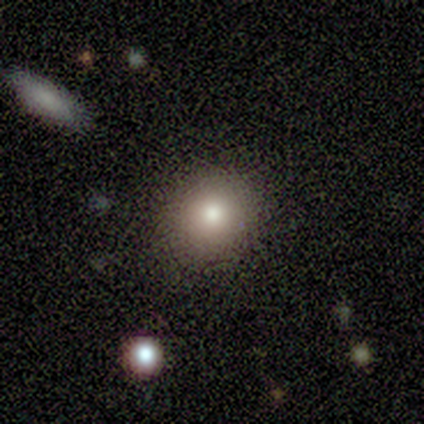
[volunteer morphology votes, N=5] A smooth galaxy with no disk features (80%) that is round (100%). Merging: none (100%).